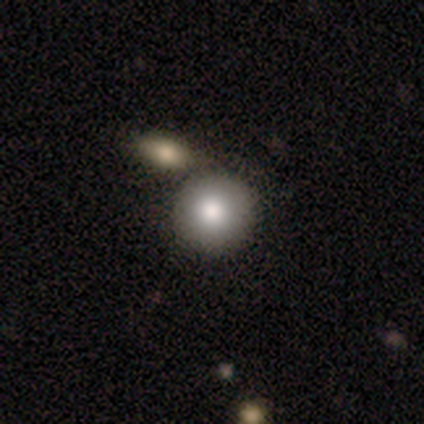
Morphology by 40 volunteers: A smooth galaxy with no disk features (80%) that is round (94%).

Vote fractions:
- Smooth or featured? smooth: 80% / featured or disk: 12% / star or artifact: 8%
- How rounded? round: 94% / in between: 6% / cigar-shaped: 0%
- Merging? none: 46% / merger: 38% / minor disturbance: 0% / major disturbance: 0%